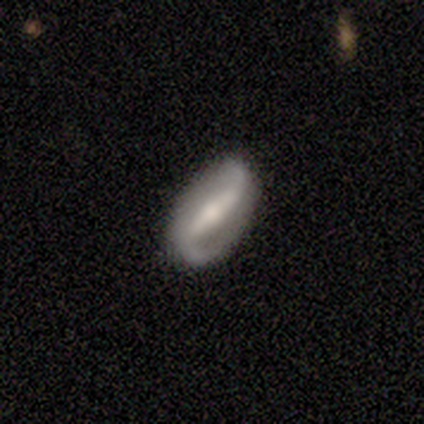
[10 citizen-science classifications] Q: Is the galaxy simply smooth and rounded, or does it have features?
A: featured or disk — 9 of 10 (90%).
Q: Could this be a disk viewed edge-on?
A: no — 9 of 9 (100%).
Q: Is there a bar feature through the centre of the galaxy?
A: strong — 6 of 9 (67%).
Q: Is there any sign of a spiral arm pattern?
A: yes — 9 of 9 (100%).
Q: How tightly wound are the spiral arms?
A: loose — 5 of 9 (56%).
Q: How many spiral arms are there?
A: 2 — 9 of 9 (100%).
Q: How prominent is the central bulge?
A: moderate — 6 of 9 (67%).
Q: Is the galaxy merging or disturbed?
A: none — 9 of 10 (90%).